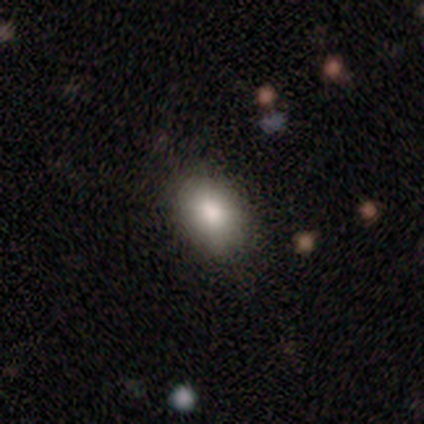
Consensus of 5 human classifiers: Smooth or featured?
  - smooth: 100% *
  - featured or disk: 0%
  - star or artifact: 0%
How rounded?
  - in between: 100% *
  - round: 0%
  - cigar-shaped: 0%
Merging?
  - none: 100% *
  - minor disturbance: 0%
  - major disturbance: 0%
  - merger: 0%